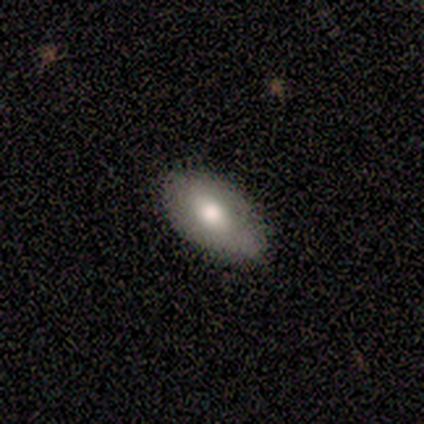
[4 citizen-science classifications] smooth-or-featured: smooth: 100% | featured or disk: 0% | star or artifact: 0%
  how-rounded: in between: 100% | round: 0% | cigar-shaped: 0%
  merging: none: 75% | minor disturbance: 25% | major disturbance: 0% | merger: 0%